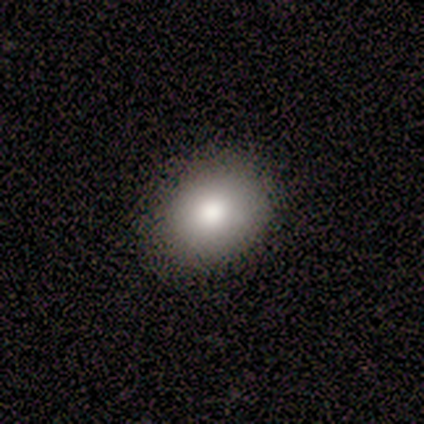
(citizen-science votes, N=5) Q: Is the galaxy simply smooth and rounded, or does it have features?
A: smooth — 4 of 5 (80%).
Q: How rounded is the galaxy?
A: round — 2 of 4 (50%, tied with in between).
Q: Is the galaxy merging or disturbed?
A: none — 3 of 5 (60%).